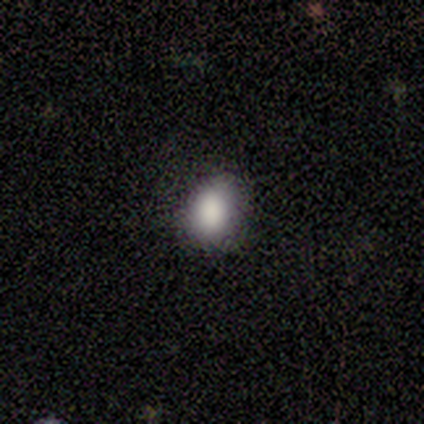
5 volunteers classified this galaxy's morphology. Q: Smooth or featured?
A: smooth (100%)
Q: How rounded?
A: in between (80%); runner-up: round (20%)
Q: Merging?
A: none (100%)